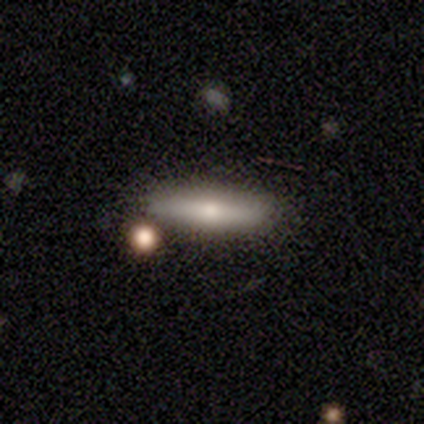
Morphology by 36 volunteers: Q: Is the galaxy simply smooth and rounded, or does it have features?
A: smooth — 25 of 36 (69%).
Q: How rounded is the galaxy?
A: cigar-shaped — 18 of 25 (72%).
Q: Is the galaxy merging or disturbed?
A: none — 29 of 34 (85%).